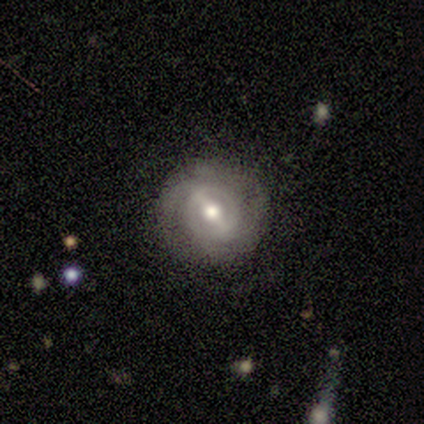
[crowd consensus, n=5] Smooth or featured: featured or disk — 60% (smooth — 40%)
Edge-on disk: no — 100%
Bar: strong — 100%
Spiral arms: yes — 67% (no — 33%)
Spiral winding: tight — 100%
Spiral arm count: 2 — 100%
Bulge size: moderate — 100%
Merging: none — 100%